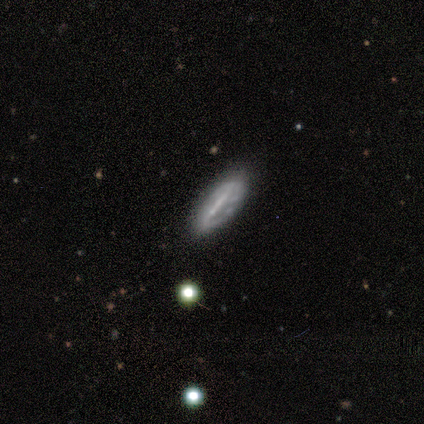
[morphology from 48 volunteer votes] A featured or disk galaxy (58%) with a strong bar (58%), tight (55%) spiral arms (58%) and no central bulge (63%).

Vote fractions:
- Smooth or featured? featured or disk: 58% / smooth: 31% / star or artifact: 10%
- Edge-on disk? no: 68% / yes: 32%
- Bar? strong: 58% / no: 32% / weak: 11%
- Spiral arms? yes: 58% / no: 42%
- Spiral winding? tight: 55% / medium: 36% / loose: 9%
- Spiral arm count? can't tell: 55% / 2: 36% / 1: 9% / 3: 0% / 4: 0% / more than 4: 0%
- Bulge size? none: 63% / small: 26% / moderate: 11% / dominant: 0% / large: 0%
- Merging? none: 67% / minor disturbance: 23% / major disturbance: 9% / merger: 0%